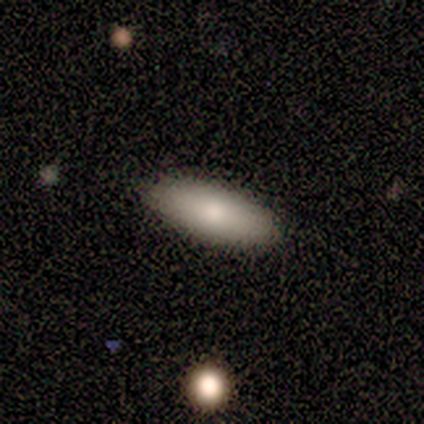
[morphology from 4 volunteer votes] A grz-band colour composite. It shows a smooth galaxy with no disk features (75%) that is in between round and cigar-shaped (67%). Merging: none (100%).